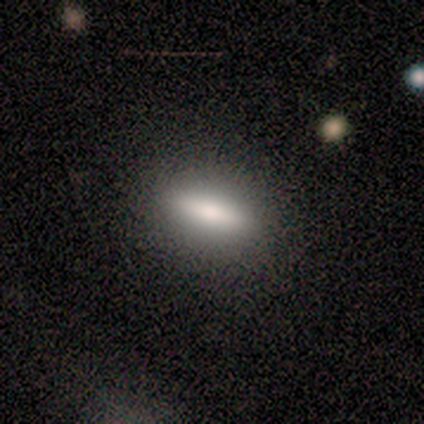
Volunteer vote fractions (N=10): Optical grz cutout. It shows a smooth galaxy with no disk features (80%) that is cigar-shaped (62%). Merging: none (88%).